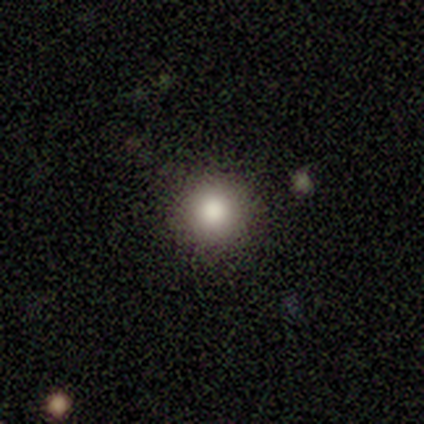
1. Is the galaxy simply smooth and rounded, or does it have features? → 100% smooth, 0% featured or disk, 0% star or artifact.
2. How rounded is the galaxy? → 100% round, 0% in between, 0% cigar-shaped.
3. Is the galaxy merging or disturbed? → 100% none, 0% minor disturbance, 0% major disturbance, 0% merger.